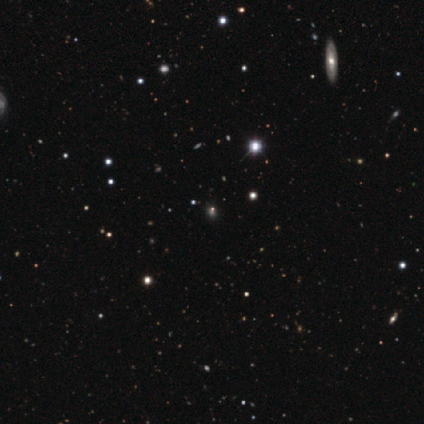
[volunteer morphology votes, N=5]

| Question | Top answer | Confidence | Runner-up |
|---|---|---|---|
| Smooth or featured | star or artifact | 60% | smooth (20%) |